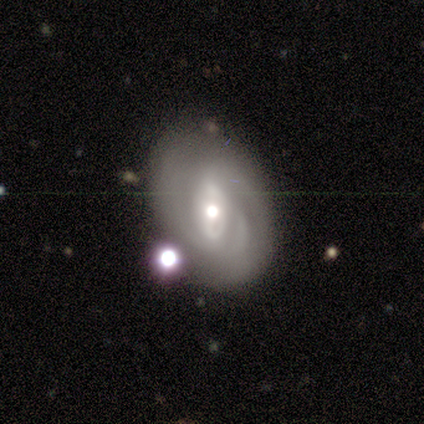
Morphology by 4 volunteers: smooth_or_featured: featured or disk (p=0.75) [alt: smooth p=0.25]
disk_edge_on: no (p=1.00)
bar: weak (p=1.00)
has_spiral_arms: yes (p=1.00)
spiral_winding: tight (p=0.67) [alt: loose p=0.33]
spiral_arm_count: can't tell (p=0.67) [alt: 2 p=0.33]
bulge_size: moderate (p=1.00)
merging: none (p=0.50) [tied with: minor disturbance p=0.50]